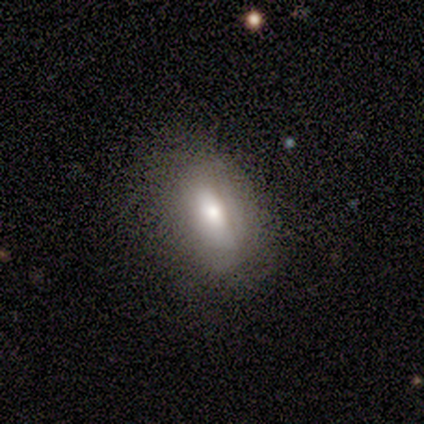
Smooth or featured? smooth (80%)
How rounded? in between (75%)
Merging? none (80%)